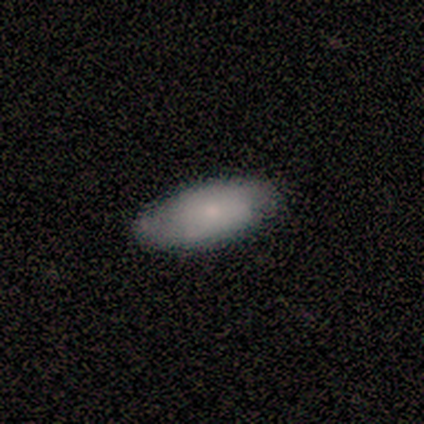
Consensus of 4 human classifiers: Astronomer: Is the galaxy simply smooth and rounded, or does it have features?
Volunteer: smooth — 100%.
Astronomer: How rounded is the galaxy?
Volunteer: in between — 75%.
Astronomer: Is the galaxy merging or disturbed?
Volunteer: none — 75%.